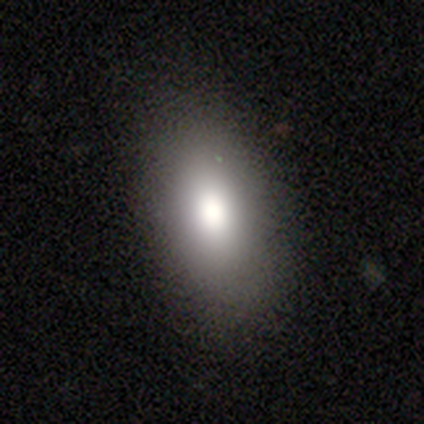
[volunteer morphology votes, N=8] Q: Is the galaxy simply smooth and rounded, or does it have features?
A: smooth — 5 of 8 (62%).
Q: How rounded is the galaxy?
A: in between — 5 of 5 (100%).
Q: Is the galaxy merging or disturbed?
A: none — 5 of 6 (83%).